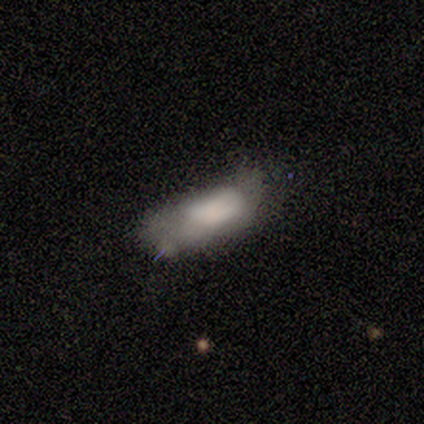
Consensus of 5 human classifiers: Overall: smooth (60%; featured or disk 40%). How rounded: in between (100%). Merging: major disturbance (60%; minor disturbance 40%).